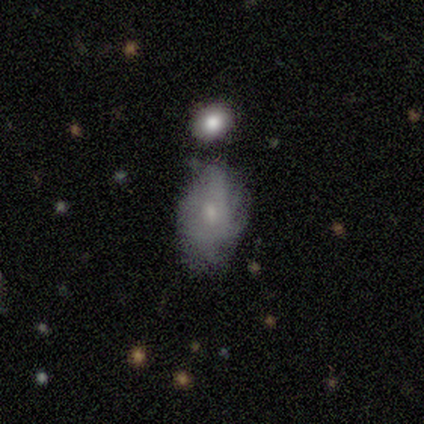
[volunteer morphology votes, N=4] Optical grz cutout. It shows a featured or disk galaxy (50%) with a weak bar (50%, tied with no), tight (50%, tied with medium) spiral arms (100%) and a small central bulge (100%). Merging: none (100%).